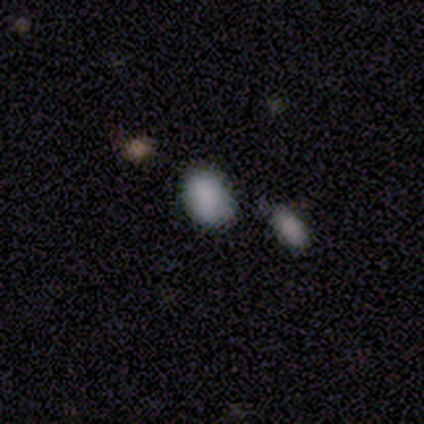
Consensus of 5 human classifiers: smooth 80%, star or artifact 20%, featured or disk 0%. Down the decision tree: how rounded — round (50%, tied with in between); merging — none (75%).